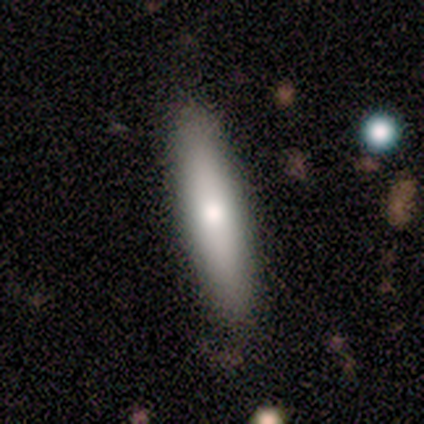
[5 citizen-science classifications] A smooth galaxy with no disk features (80%) that is cigar-shaped (100%). Merging: none (80%).